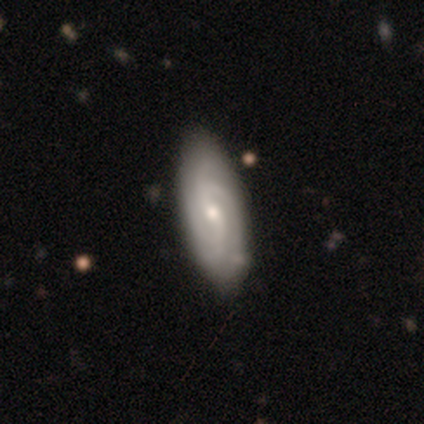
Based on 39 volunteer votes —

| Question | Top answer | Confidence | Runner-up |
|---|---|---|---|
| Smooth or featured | featured or disk | 85% | smooth (15%) |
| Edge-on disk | no | 97% | yes (3%) |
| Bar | weak | 59% | no (31%) |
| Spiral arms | yes | 97% | no (3%) |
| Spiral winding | tight | 52% | medium (32%) |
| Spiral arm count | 2 | 35% | 4 (29%) |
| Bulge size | small | 72% | moderate (28%) |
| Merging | none | 87% | minor disturbance (10%) |